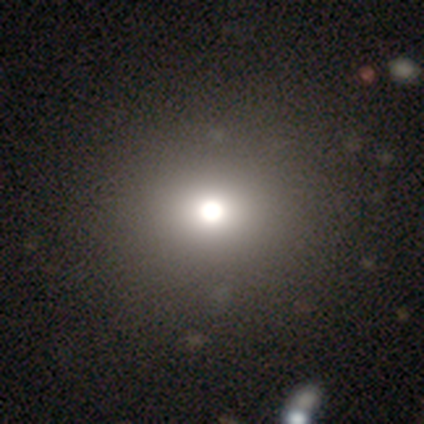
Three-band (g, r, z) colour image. It shows a smooth galaxy with no disk features (83%) that is round (60%). Merging: none (83%).